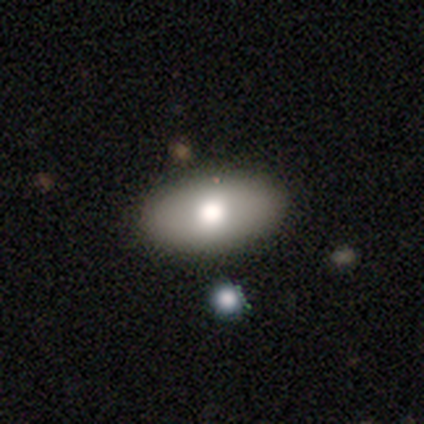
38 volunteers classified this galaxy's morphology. This is likely a smooth galaxy (76%). How rounded: clearly in between (97%). Merging: clearly none (82%).